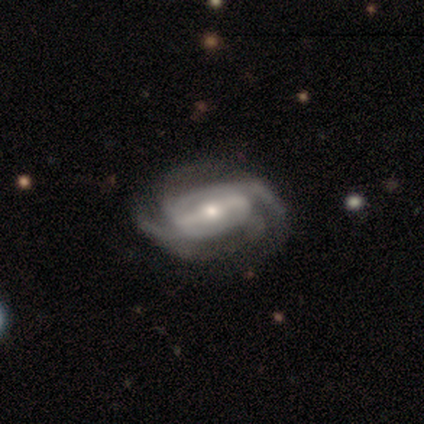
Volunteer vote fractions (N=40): This is clearly a featured or disk galaxy (95%). It is clearly not viewed edge-on (95%). Bar: possibly strong (50%). Spiral arm pattern: clearly yes (97%). Spiral arm count: marginally 4 (43%). Spiral winding: marginally medium (43%). Central bulge: possibly small (53%). Merging: likely none (66%).